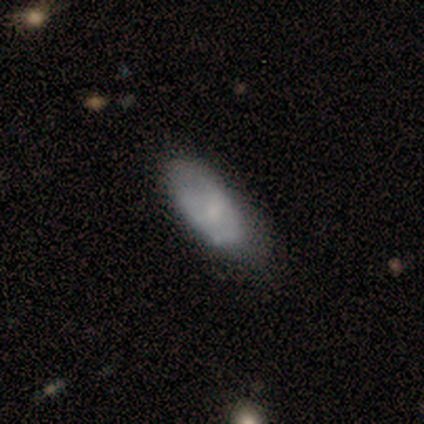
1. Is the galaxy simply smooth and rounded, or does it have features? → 51% smooth, 46% featured or disk, 3% star or artifact.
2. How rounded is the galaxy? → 80% in between, 15% cigar-shaped, 5% round.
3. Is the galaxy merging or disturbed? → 37% none, 26% minor disturbance, 5% major disturbance, 5% merger.